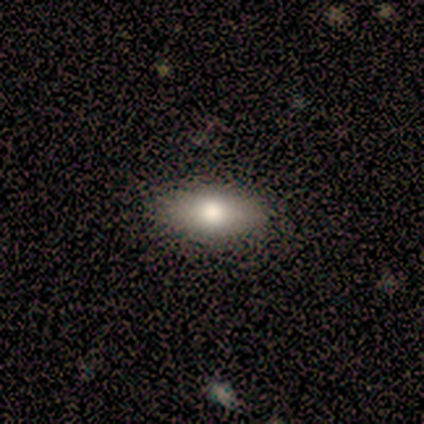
Smooth or featured? smooth (80%)
How rounded? in between (100%)
Merging? none (100%)